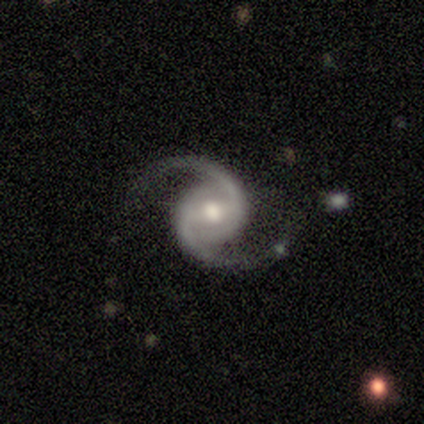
This appears to be a featured or disk galaxy (100%) with a weak bar (60%), 2 (100%) medium (80%) spiral arms (100%) and a moderate central bulge (80%). Merging: none (100%).